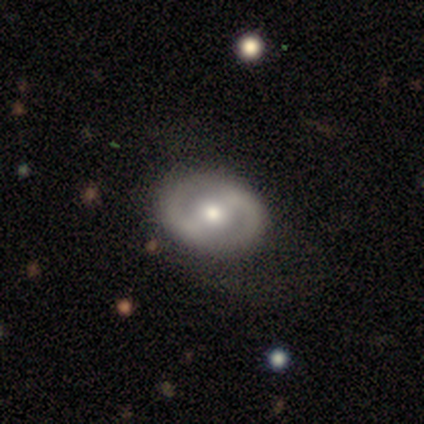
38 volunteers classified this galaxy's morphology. Smooth or featured?
  - featured or disk: 76% *
  - smooth: 13%
  - star or artifact: 11%
Edge-on disk?
  - no: 97% *
  - yes: 3%
Bar?
  - weak: 43% *
  - strong: 32%
  - no: 25%
Spiral arms?
  - yes: 82% *
  - no: 18%
Spiral winding?
  - medium: 43% *
  - loose: 30%
  - tight: 26%
Spiral arm count?
  - 2: 87% *
  - 1: 9%
  - can't tell: 4%
  - 3: 0%
  - 4: 0%
  - more than 4: 0%
Bulge size?
  - moderate: 61% *
  - small: 32%
  - large: 4%
  - none: 4%
  - dominant: 0%
Merging?
  - none: 79% *
  - minor disturbance: 12%
  - major disturbance: 6%
  - merger: 3%